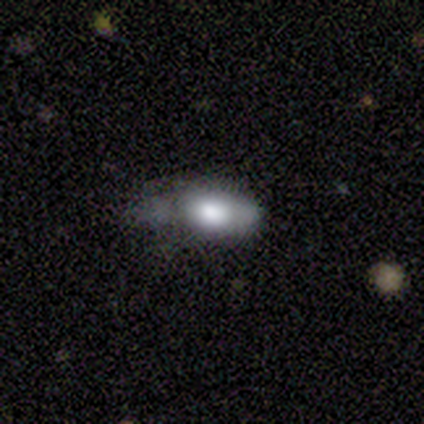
Smooth or featured? smooth (83%)
How rounded? in between (100%)
Merging? none (50%)